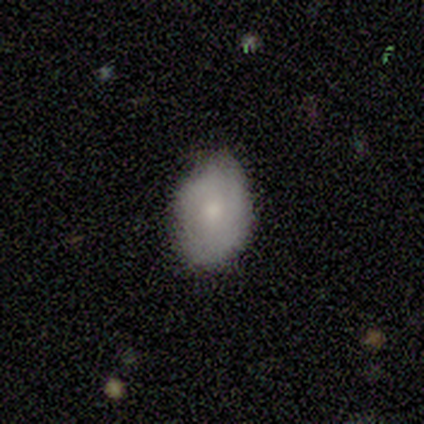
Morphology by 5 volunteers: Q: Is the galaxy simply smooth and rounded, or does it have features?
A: smooth — 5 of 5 (100%).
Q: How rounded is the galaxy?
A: in between — 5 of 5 (100%).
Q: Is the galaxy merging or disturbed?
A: none — 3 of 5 (60%).